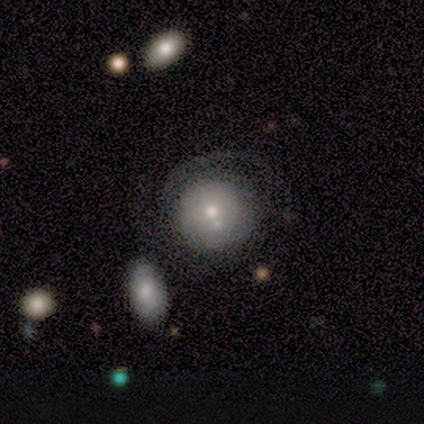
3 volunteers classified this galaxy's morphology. Overall: featured or disk (100%). Edge-on disk: no (100%). Bar: no (100%). Spiral arms: no (67%; yes 33%). Bulge size: moderate (67%; small 33%). Merging: none (33%, tied with major disturbance and merger).